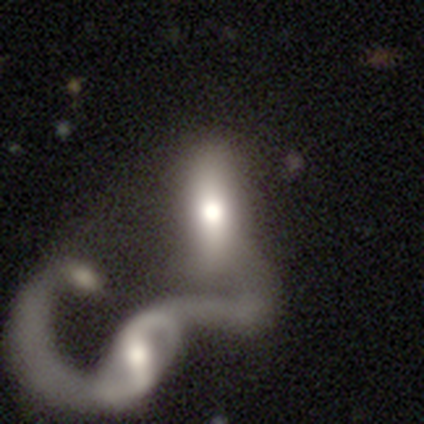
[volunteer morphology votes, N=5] type=featured or disk (60%); edge-on=no (67%); bar=weak (50%, tied with no); spiral arms=yes (50%, tied with no); winding=loose (100%); arm count=2 (100%); bulge=moderate (100%); merging=merger (100%).